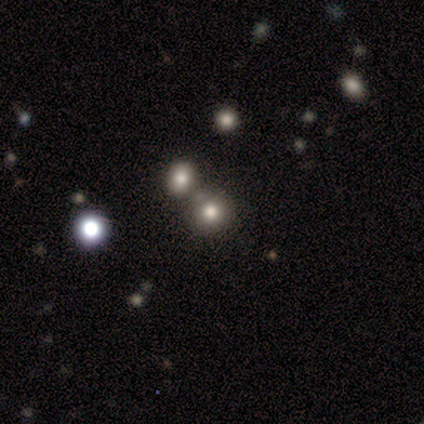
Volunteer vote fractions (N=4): smooth-or-featured: smooth: 50% | featured or disk: 25% | star or artifact: 25%
  how-rounded: round: 100% | in between: 0% | cigar-shaped: 0%
  merging: merger: 67% | none: 33% | minor disturbance: 0% | major disturbance: 0%